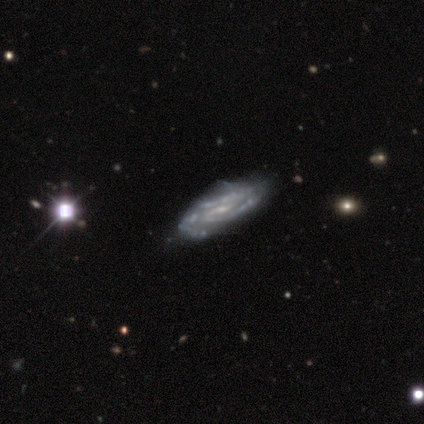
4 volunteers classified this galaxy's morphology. Smooth or featured: featured or disk — 100%
Edge-on disk: no — 75% (yes — 25%)
Bar: weak — 67% (no — 33%)
Spiral arms: yes — 100%
Spiral winding: tight — 67% (medium — 33%)
Spiral arm count: 2 — 100%
Bulge size: small — 100%
Merging: none — 100%